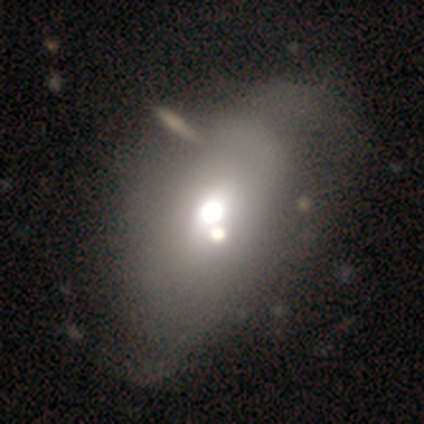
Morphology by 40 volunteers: type=smooth (57%); roundness=in between (78%); merging=none (35%).